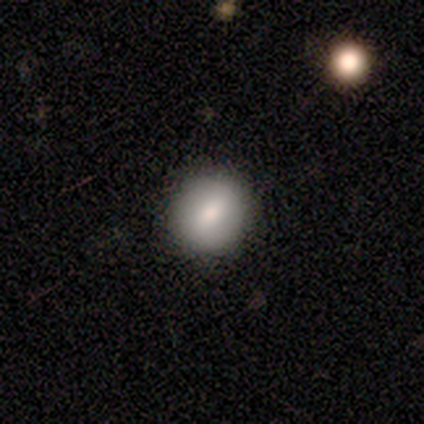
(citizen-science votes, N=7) smooth 71%, featured or disk 29%, star or artifact 0%. Down the decision tree: how rounded — round (60%); merging — none (86%).